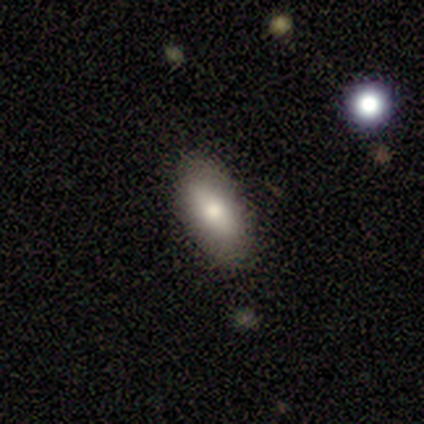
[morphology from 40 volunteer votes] type=smooth (80%); roundness=in between (94%); merging=none (92%).